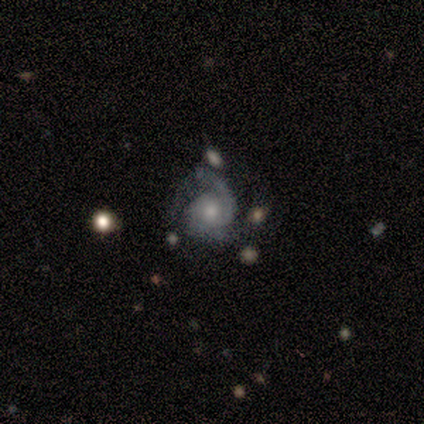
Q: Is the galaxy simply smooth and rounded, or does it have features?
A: featured or disk — 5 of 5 (100%).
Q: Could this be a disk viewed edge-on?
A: no — 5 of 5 (100%).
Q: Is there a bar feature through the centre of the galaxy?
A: no — 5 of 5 (100%).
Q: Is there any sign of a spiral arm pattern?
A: yes — 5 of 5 (100%).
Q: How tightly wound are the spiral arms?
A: tight — 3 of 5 (60%).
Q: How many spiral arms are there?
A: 2 — 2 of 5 (40%, tied with can't tell).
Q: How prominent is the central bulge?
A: small — 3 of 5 (60%).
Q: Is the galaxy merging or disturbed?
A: minor disturbance — 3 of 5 (60%).